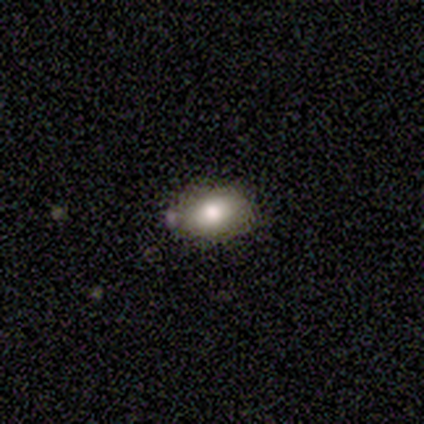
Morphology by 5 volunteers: This is marginally a smooth galaxy (40%, tied with star or artifact). How rounded: clearly in between (100%). Merging: marginally none (33%, tied with major disturbance and merger).